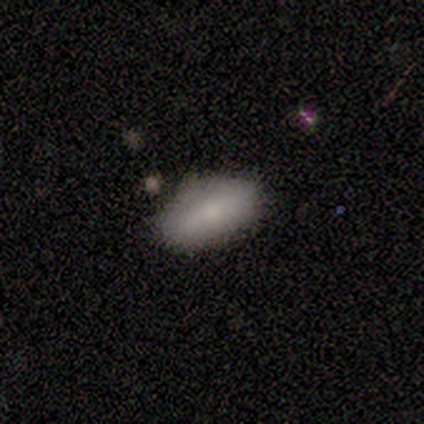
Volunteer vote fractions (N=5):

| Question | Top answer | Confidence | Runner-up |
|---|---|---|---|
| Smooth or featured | smooth | 80% | featured or disk (20%) |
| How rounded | in between | 100% | — |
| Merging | none | 80% | merger (20%) |